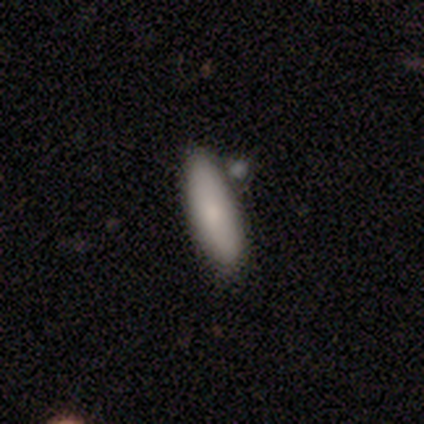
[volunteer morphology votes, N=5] A smooth galaxy with no disk features (100%) that is in between round and cigar-shaped (60%). Merging: none (100%).